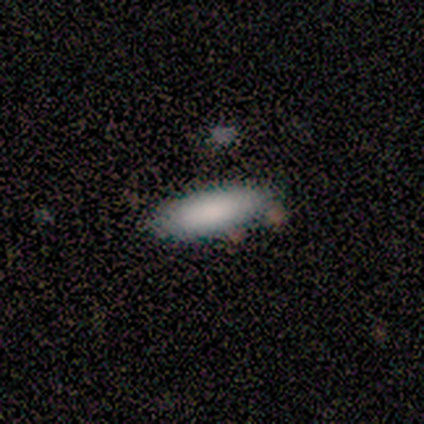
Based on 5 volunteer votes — This appears to be a smooth galaxy with no disk features (80%) that is in between round and cigar-shaped (75%). Merging: none (75%).